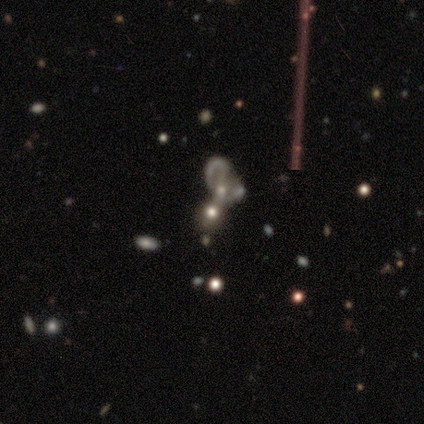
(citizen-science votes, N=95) Q: Smooth or featured?
A: featured or disk (45%); runner-up: smooth (40%)
Q: Edge-on disk?
A: no (98%); runner-up: yes (2%)
Q: Bar?
A: no (86%); runner-up: strong (7%)
Q: Spiral arms?
A: no (76%); runner-up: yes (24%)
Q: Bulge size?
A: moderate (36%); runner-up: small (29%)
Q: Merging?
A: merger (69%); runner-up: none (14%)